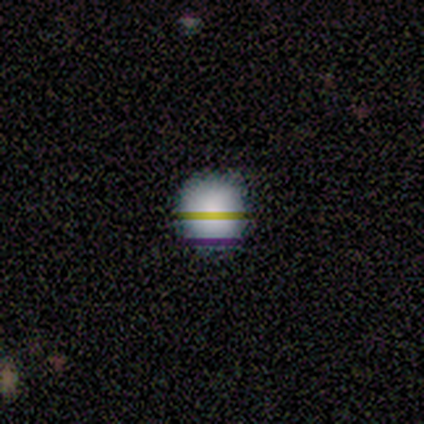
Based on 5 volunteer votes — smooth-or-featured: smooth: 80% | star or artifact: 20% | featured or disk: 0%
  how-rounded: round: 100% | in between: 0% | cigar-shaped: 0%
  merging: none: 100% | minor disturbance: 0% | major disturbance: 0% | merger: 0%